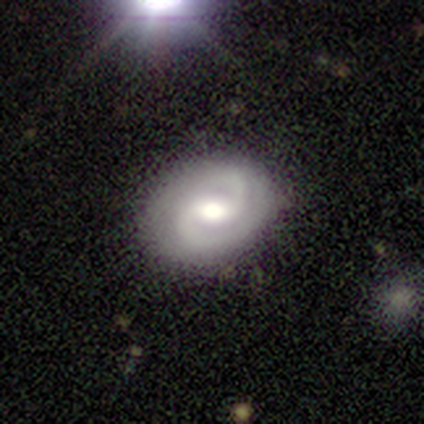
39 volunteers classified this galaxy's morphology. featured or disk 95%, smooth 5%, star or artifact 0%. Down the decision tree: edge-on disk — no (100%); bar — weak (73%); spiral arms — yes (100%); spiral arm count — 2 (95%); spiral winding — tight (62%); bulge size — moderate (70%); merging — none (90%).